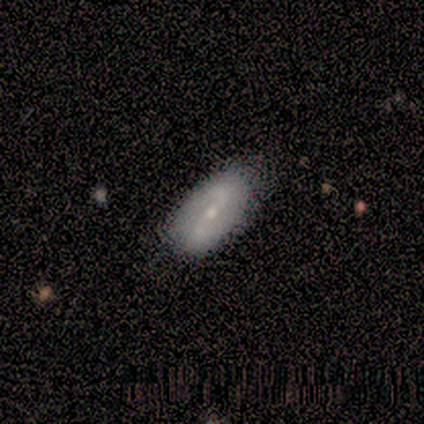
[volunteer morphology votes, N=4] smooth 75%, featured or disk 25%, star or artifact 0%. Down the decision tree: how rounded — in between (100%); merging — none (50%, tied with minor disturbance).